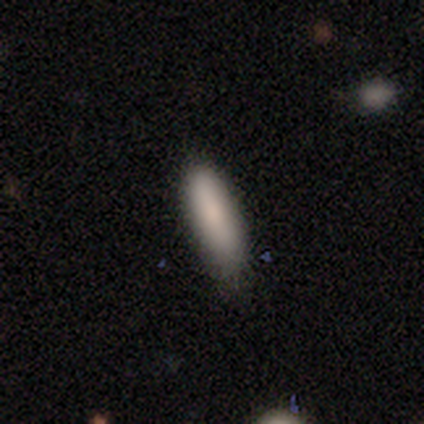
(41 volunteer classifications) smooth-or-featured: smooth: 88% | star or artifact: 7% | featured or disk: 5%
  how-rounded: in between: 53% | cigar-shaped: 44% | round: 3%
  merging: none: 71% | minor disturbance: 26% | major disturbance: 3% | merger: 0%